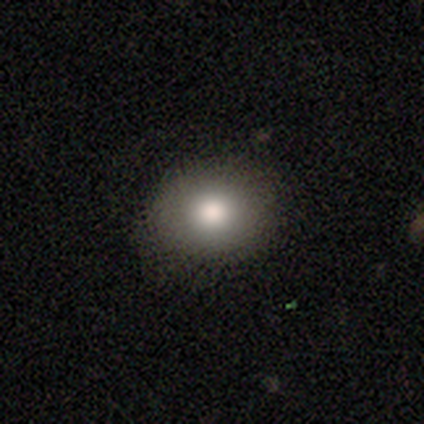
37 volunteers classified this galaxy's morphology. Smooth or featured?
  - smooth: 81% *
  - featured or disk: 11%
  - star or artifact: 8%
How rounded?
  - round: 63% *
  - in between: 37%
  - cigar-shaped: 0%
Merging?
  - none: 94% *
  - minor disturbance: 6%
  - major disturbance: 0%
  - merger: 0%